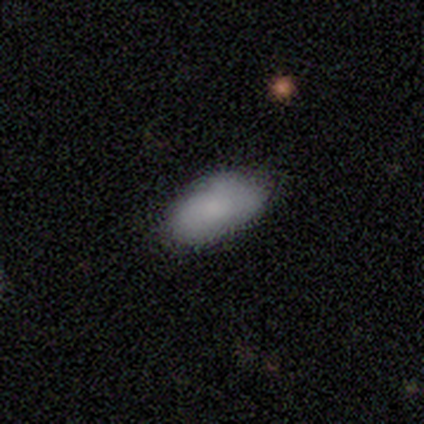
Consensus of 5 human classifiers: Volunteers were most divided on "smooth or featured": smooth: 80%, featured or disk: 20%, star or artifact: 0%. More confident: how rounded — in between (100%); merging — none (80%).